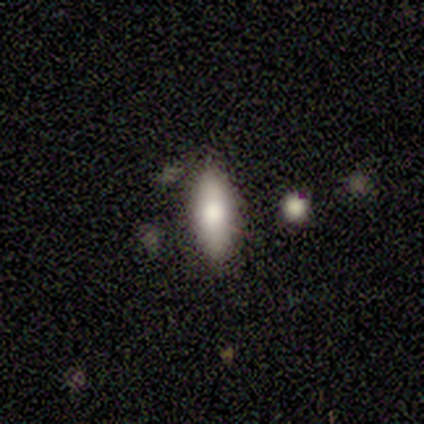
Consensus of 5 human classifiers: A smooth galaxy with no disk features (60%) that is cigar-shaped (67%).

Vote fractions:
- Smooth or featured? smooth: 60% / featured or disk: 40% / star or artifact: 0%
- How rounded? cigar-shaped: 67% / in between: 33% / round: 0%
- Merging? none: 100% / minor disturbance: 0% / major disturbance: 0% / merger: 0%